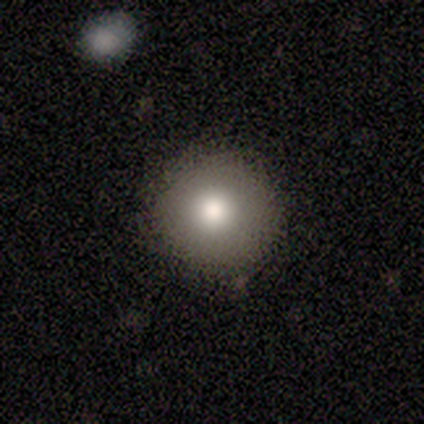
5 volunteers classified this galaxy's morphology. A smooth galaxy with no disk features (80%) that is round (100%).

Vote fractions:
- Smooth or featured? smooth: 80% / star or artifact: 20% / featured or disk: 0%
- How rounded? round: 100% / in between: 0% / cigar-shaped: 0%
- Merging? none: 75% / minor disturbance: 25% / major disturbance: 0% / merger: 0%